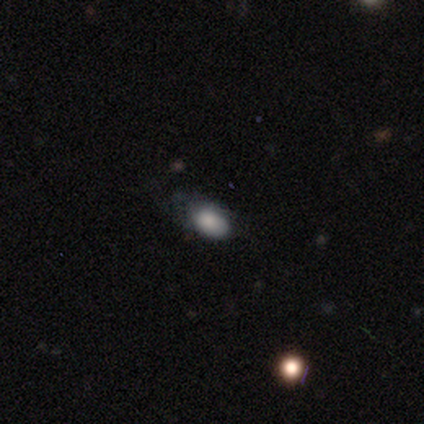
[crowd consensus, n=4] Smooth or featured?
  - smooth: 100% *
  - featured or disk: 0%
  - star or artifact: 0%
How rounded?
  - in between: 75% *
  - cigar-shaped: 25%
  - round: 0%
Merging?
  - minor disturbance: 50% * (tied)
  - major disturbance: 50% * (tied)
  - none: 0%
  - merger: 0%